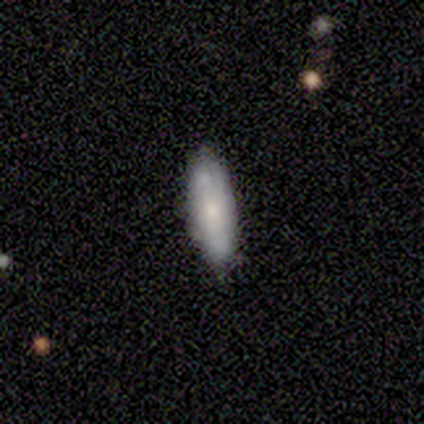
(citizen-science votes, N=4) A smooth galaxy with no disk features (50%, tied with featured or disk) that is in between round and cigar-shaped (50%, tied with cigar-shaped). Merging: none (75%).